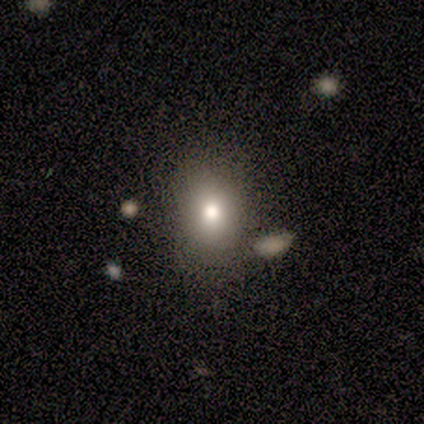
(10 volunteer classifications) smooth-or-featured: smooth: 80% | featured or disk: 20% | star or artifact: 0%
  how-rounded: round: 50% (tied) | in between: 50% (tied) | cigar-shaped: 0%
  merging: none: 90% | merger: 10% | minor disturbance: 0% | major disturbance: 0%